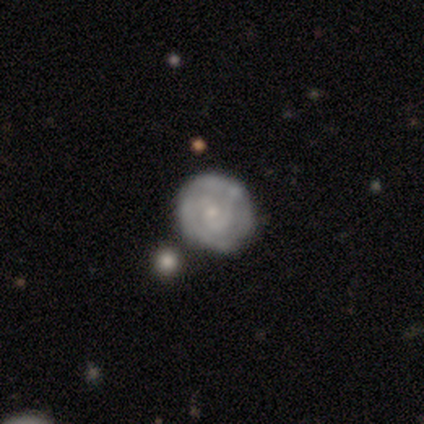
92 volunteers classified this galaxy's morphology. A featured or disk galaxy (65%) with no bar (73%), 2 (53%) tight (70%) spiral arms (88%) and a small central bulge (78%). Merging: none (76%).